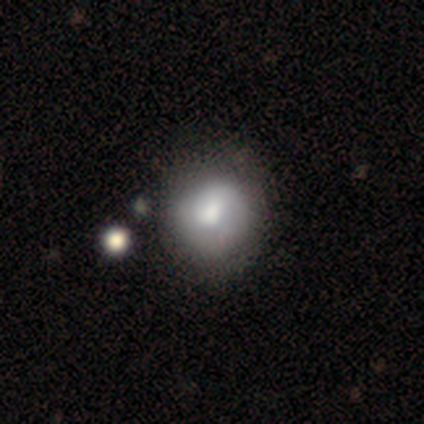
Morphology: type=smooth (86%); roundness=round (67%); merging=none (71%).